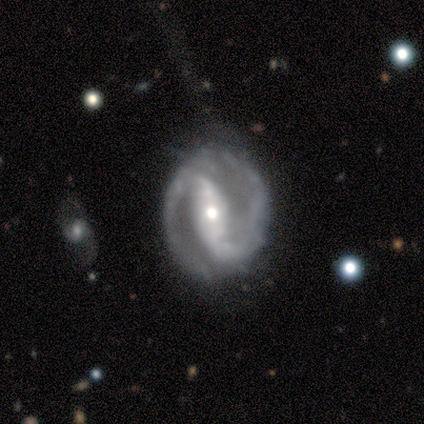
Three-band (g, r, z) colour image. It shows a featured or disk galaxy (100%) with a strong bar (75%), 2 (100%) medium (75%) spiral arms (100%) and a moderate central bulge (75%). Merging: none (100%).